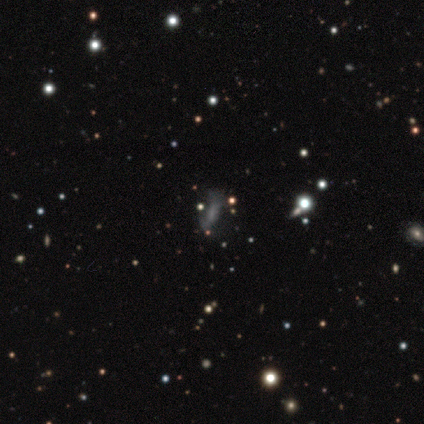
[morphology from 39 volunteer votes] Smooth or featured? star or artifact (36%)